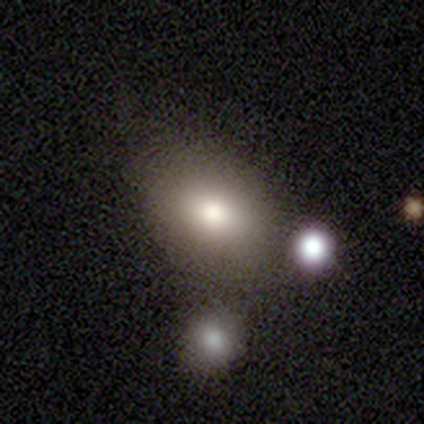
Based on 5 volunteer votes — Volunteers were most divided on "how rounded" (2-way tie): round: 50%, in between: 50%, cigar-shaped: 0%. More confident: smooth or featured — smooth (80%); merging — none (80%).